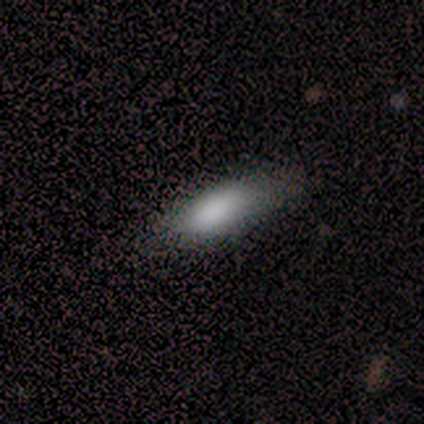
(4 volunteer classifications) Q: Smooth or featured?
A: smooth (50%); runner-up: featured or disk (25%)
Q: How rounded?
A: cigar-shaped (100%)
Q: Merging?
A: none (67%); runner-up: minor disturbance (33%)